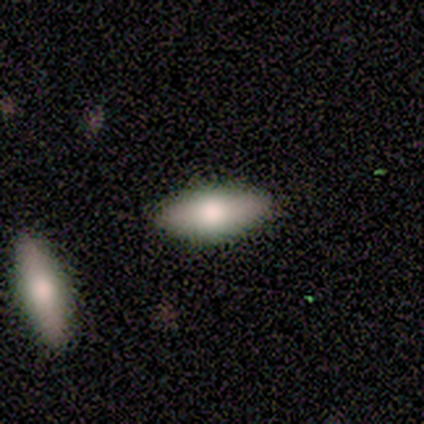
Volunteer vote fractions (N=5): Overall: smooth (60%; featured or disk 20%). How rounded: in between (100%). Merging: none (50%, tied with minor disturbance).